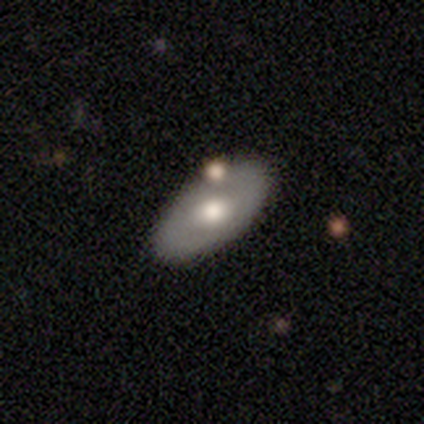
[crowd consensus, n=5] Smooth or featured? smooth (60%)
How rounded? in between (100%)
Merging? none (60%)